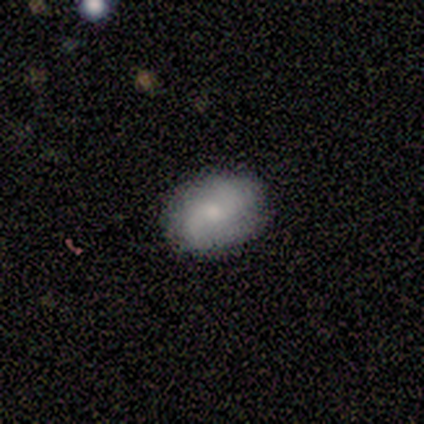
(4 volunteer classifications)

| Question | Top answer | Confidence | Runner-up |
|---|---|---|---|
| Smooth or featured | smooth | 100% | — |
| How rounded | in between | 75% | round (25%) |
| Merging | none | 75% | minor disturbance (25%) |